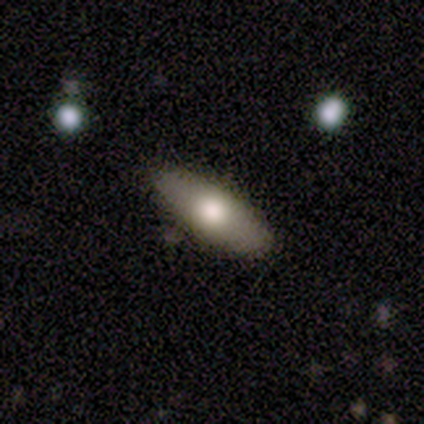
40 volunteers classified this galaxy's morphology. Volunteers were most divided on "smooth or featured": smooth: 70%, featured or disk: 20%, star or artifact: 10%. More confident: merging — none (92%); how rounded — in between (75%).